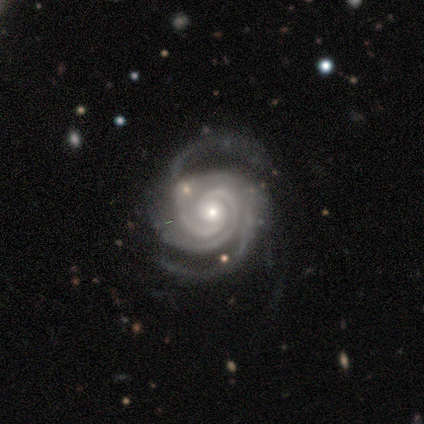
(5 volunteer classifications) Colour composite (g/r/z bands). It shows a featured or disk galaxy (100%) with no bar (100%), 2 (60%) tight (100%) spiral arms (100%) and a small central bulge (80%). Merging: none (80%).